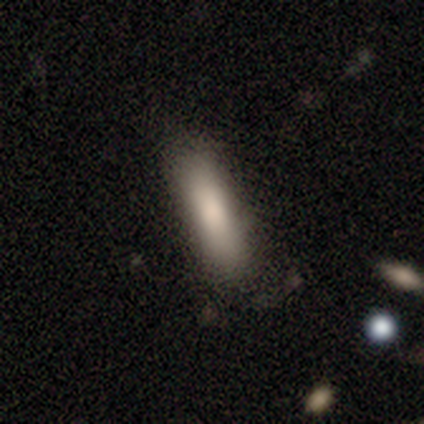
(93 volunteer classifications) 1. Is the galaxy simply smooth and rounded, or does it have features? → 80% smooth, 11% featured or disk, 10% star or artifact.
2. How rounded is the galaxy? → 65% cigar-shaped, 32% in between, 3% round.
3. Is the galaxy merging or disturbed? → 74% none, 20% minor disturbance, 4% merger, 2% major disturbance.